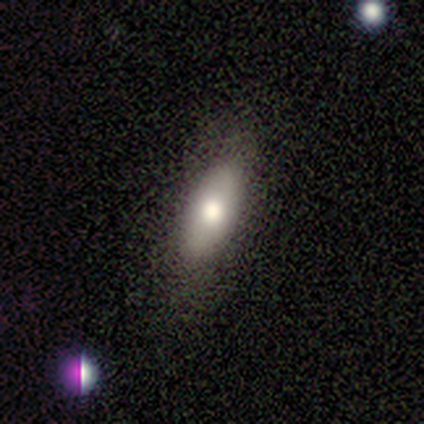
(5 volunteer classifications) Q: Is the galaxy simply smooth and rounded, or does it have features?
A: smooth — 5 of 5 (100%).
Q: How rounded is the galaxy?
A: in between — 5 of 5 (100%).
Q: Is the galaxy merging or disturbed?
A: none — 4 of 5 (80%).